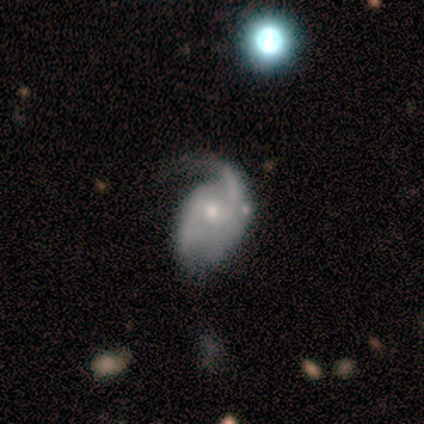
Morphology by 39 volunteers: Smooth or featured: featured or disk — 92% (smooth — 8%)
Edge-on disk: no — 97% (yes — 3%)
Bar: no — 71% (weak — 29%)
Spiral arms: yes — 97% (no — 3%)
Spiral winding: loose — 50% (medium — 32%)
Spiral arm count: 2 — 65% (1 — 24%)
Bulge size: small — 54% (moderate — 43%)
Merging: major disturbance — 38% (none — 31%)